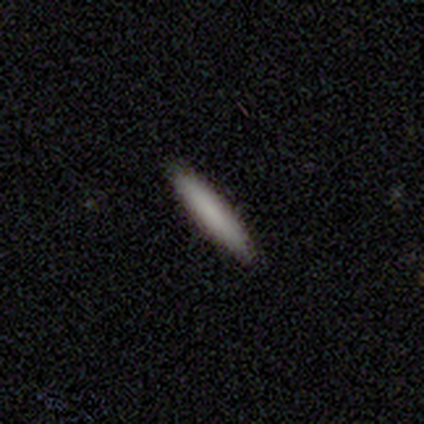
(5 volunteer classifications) Volunteers were most divided on "smooth or featured": smooth: 80%, featured or disk: 20%, star or artifact: 0%. More confident: how rounded — cigar-shaped (100%); merging — none (100%).